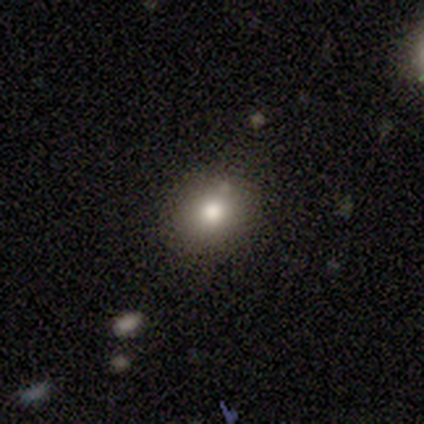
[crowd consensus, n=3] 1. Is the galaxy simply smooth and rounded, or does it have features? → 67% smooth, 33% star or artifact, 0% featured or disk.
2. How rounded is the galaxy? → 100% round, 0% in between, 0% cigar-shaped.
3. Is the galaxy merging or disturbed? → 100% none, 0% minor disturbance, 0% major disturbance, 0% merger.